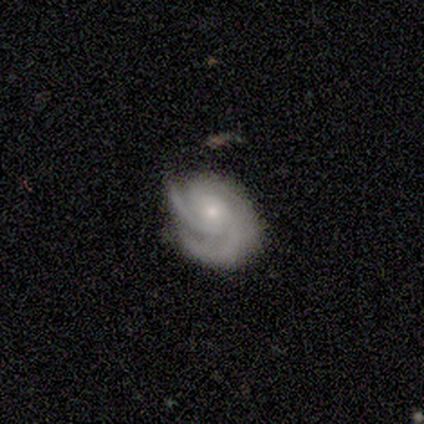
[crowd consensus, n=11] Smooth or featured: featured or disk — 91% (smooth — 9%)
Edge-on disk: no — 100%
Bar: no — 90% (weak — 10%)
Spiral arms: yes — 100%
Spiral winding: tight — 60% (medium — 40%)
Spiral arm count: 2 — 40% (tied with 3 — 40%)
Bulge size: small — 70% (moderate — 30%)
Merging: none — 82% (minor disturbance — 18%)